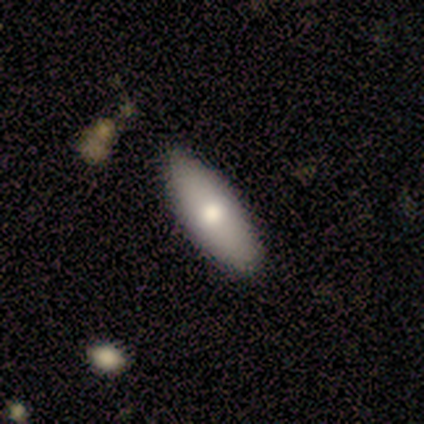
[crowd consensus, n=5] smooth-or-featured: smooth: 80% | featured or disk: 20% | star or artifact: 0%
  how-rounded: in between: 75% | cigar-shaped: 25% | round: 0%
  merging: none: 80% | minor disturbance: 20% | major disturbance: 0% | merger: 0%